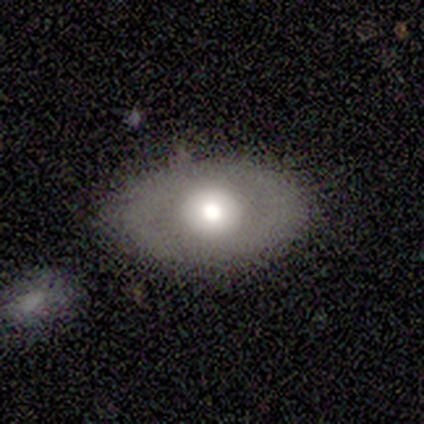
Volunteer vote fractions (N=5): featured or disk 60%, smooth 40%, star or artifact 0%. Down the decision tree: edge-on disk — no (100%); bar — no (67%); spiral arms — no (67%); bulge size — moderate (100%); merging — none (80%).